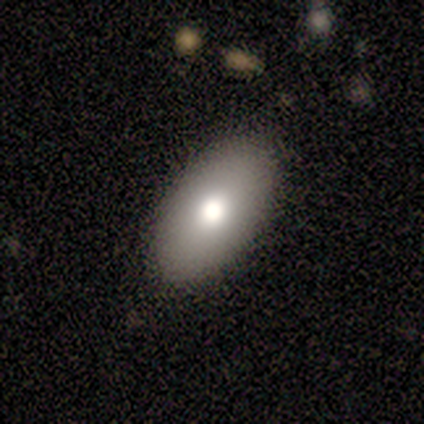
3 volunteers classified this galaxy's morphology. A smooth galaxy with no disk features (67%) that is in between round and cigar-shaped (100%). Merging: none (100%).